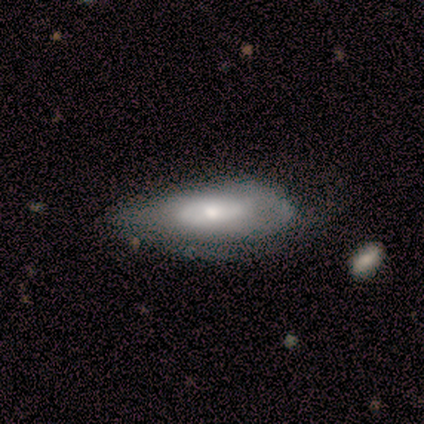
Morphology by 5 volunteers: Smooth or featured?
  - smooth: 60% *
  - featured or disk: 20%
  - star or artifact: 20%
How rounded?
  - in between: 100% *
  - round: 0%
  - cigar-shaped: 0%
Merging?
  - none: 75% *
  - major disturbance: 25%
  - minor disturbance: 0%
  - merger: 0%